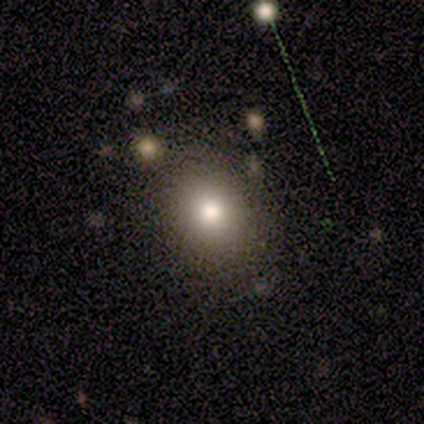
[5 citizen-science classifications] Smooth or featured? 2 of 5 (40%, tied with featured or disk) said smooth. How rounded? 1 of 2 (50%, tied with in between) said round. Merging? 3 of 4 (75%) said none.